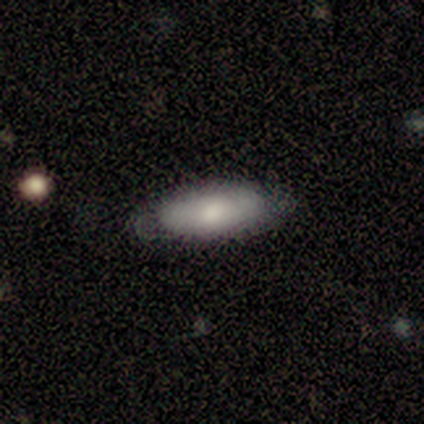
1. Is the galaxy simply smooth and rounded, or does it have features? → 80% smooth, 20% star or artifact, 0% featured or disk.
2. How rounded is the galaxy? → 75% cigar-shaped, 25% in between, 0% round.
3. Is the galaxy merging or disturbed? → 100% none, 0% minor disturbance, 0% major disturbance, 0% merger.